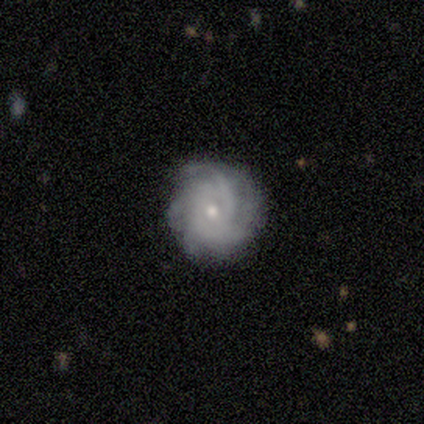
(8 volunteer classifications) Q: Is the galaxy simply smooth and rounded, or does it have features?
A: featured or disk — 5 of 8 (62%).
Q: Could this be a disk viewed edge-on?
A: no — 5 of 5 (100%).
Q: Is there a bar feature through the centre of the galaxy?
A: no — 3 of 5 (60%).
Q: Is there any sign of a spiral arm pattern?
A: yes — 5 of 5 (100%).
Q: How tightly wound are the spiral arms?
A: tight — 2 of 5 (40%, tied with medium).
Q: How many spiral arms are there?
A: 2 — 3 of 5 (60%).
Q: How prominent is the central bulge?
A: small — 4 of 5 (80%).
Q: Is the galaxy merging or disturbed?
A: none — 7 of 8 (88%).